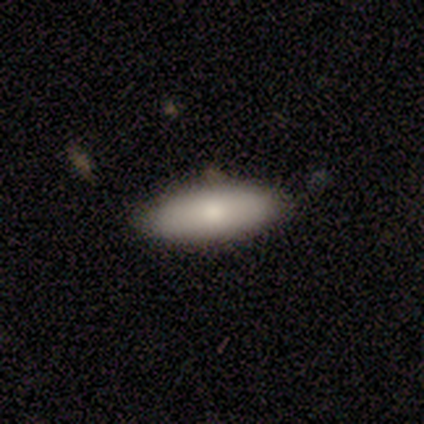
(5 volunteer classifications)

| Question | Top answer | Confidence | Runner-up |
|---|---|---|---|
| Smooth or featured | smooth | 80% | featured or disk (20%) |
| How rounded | cigar-shaped | 75% | in between (25%) |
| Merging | none | 80% | minor disturbance (20%) |